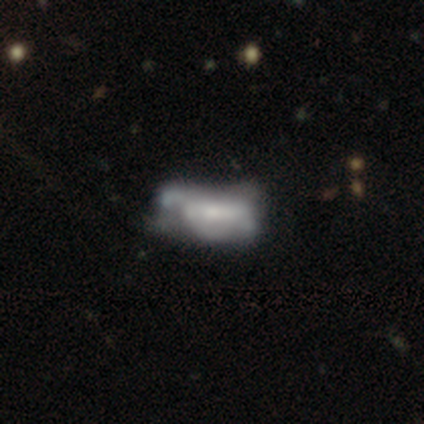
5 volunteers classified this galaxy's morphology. Smooth or featured: smooth — 40% (tied with featured or disk — 40%)
How rounded: in between — 100%
Merging: none — 50% (tied with minor disturbance — 50%)